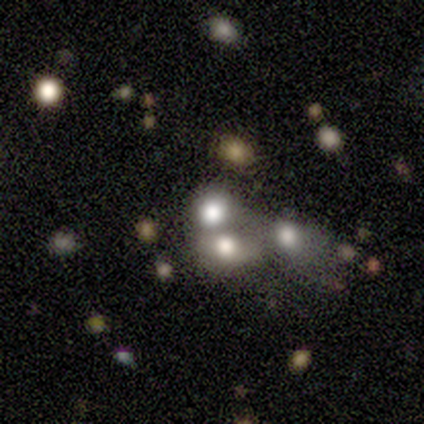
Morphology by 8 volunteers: Volunteers were most divided on "merging": none: 57%, merger: 43%, minor disturbance: 0%, major disturbance: 0%. More confident: smooth or featured — smooth (62%); how rounded — round (60%).